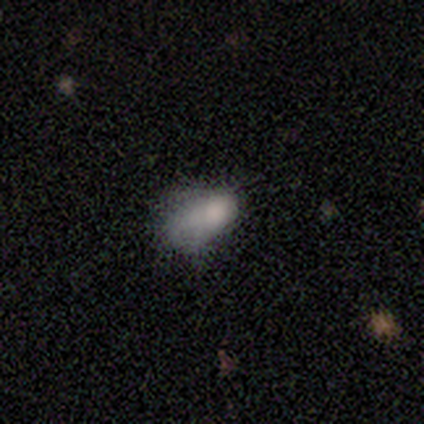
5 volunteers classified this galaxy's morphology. This appears to be a smooth galaxy with no disk features (60%) that is in between round and cigar-shaped (100%). Merging: minor disturbance (40%, tied with major disturbance).